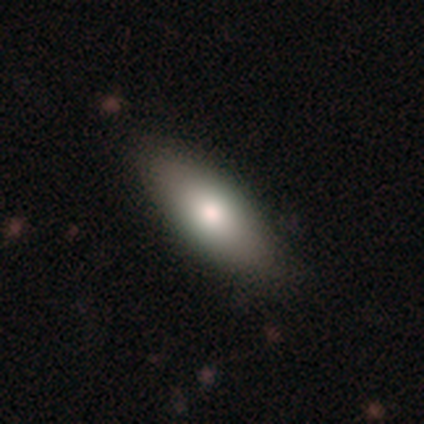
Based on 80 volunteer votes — A smooth galaxy with no disk features (88%) that is in between round and cigar-shaped (87%). Merging: none (41%).